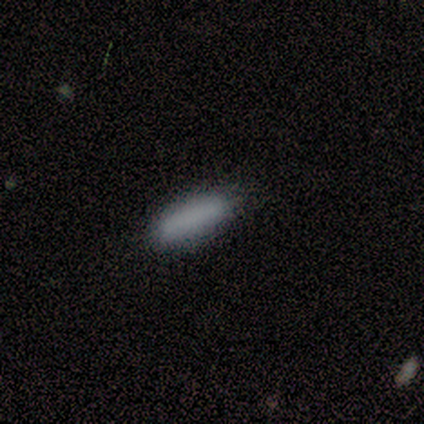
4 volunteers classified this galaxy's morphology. A smooth galaxy with no disk features (100%) that is in between round and cigar-shaped (50%, tied with cigar-shaped).

Vote fractions:
- Smooth or featured? smooth: 100% / featured or disk: 0% / star or artifact: 0%
- How rounded? in between: 50% (tied) / cigar-shaped: 50% (tied) / round: 0%
- Merging? none: 75% / minor disturbance: 25% / major disturbance: 0% / merger: 0%